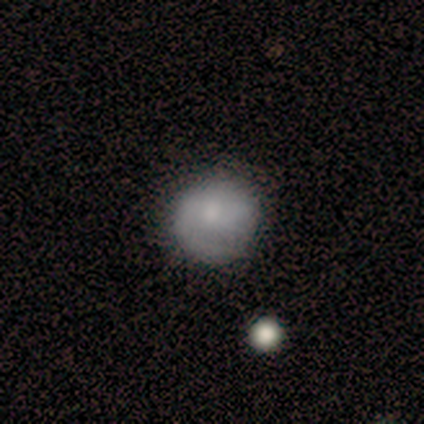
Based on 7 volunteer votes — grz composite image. It shows a smooth galaxy with no disk features (71%) that is round (60%). Merging: none (71%).